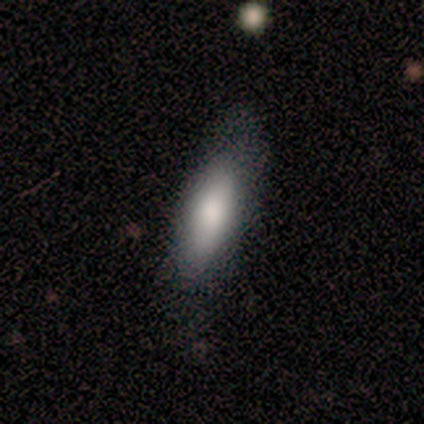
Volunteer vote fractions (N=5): Smooth or featured? smooth (100%)
How rounded? in between (100%)
Merging? none (100%)